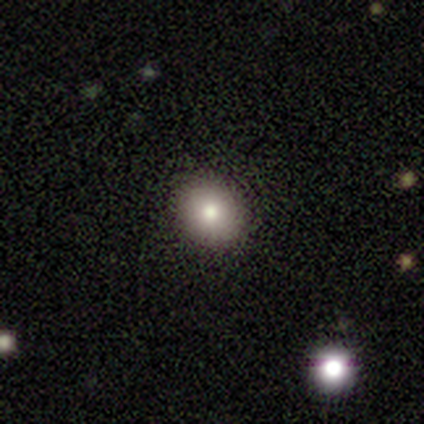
A smooth galaxy with no disk features (86%) that is round (75%). Merging: none (51%).